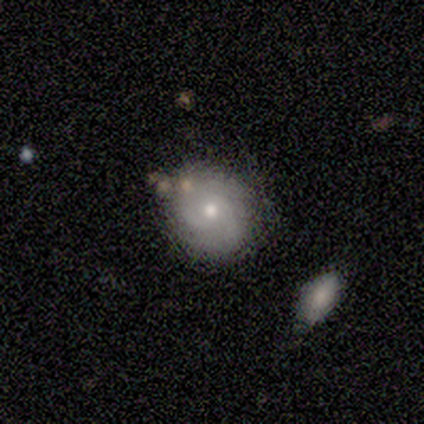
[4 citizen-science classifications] Overall: smooth (50%; featured or disk 25%). How rounded: round (50%, tied with in between). Merging: none (67%; minor disturbance 33%).